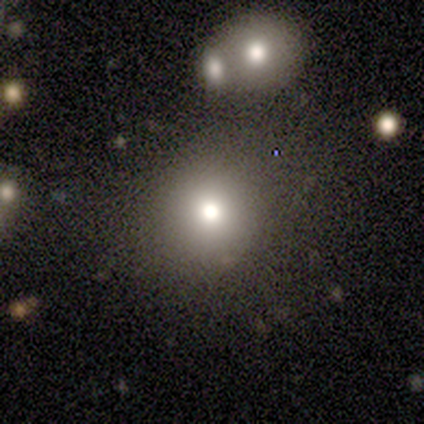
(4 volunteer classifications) Morphology: type=smooth (100%); roundness=round (100%); merging=none (100%).